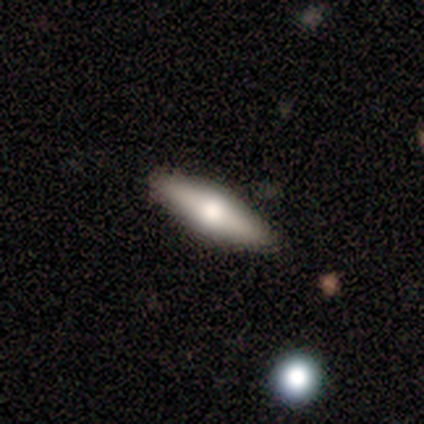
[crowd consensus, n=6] Morphology: type=smooth (83%); roundness=cigar-shaped (80%); merging=none (67%).